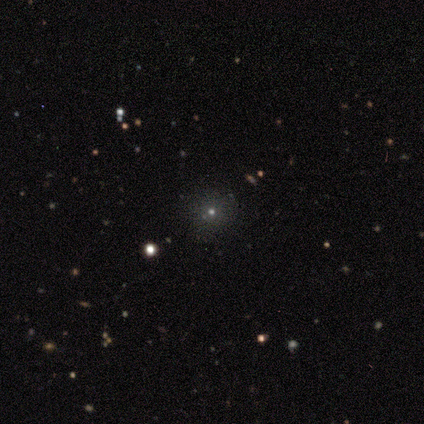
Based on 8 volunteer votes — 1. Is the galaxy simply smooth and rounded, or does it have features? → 75% smooth, 25% star or artifact, 0% featured or disk.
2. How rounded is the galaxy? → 100% round, 0% in between, 0% cigar-shaped.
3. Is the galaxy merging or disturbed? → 100% none, 0% minor disturbance, 0% major disturbance, 0% merger.